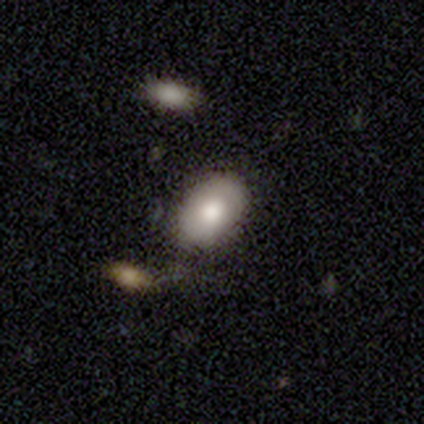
smooth_or_featured: smooth (p=0.72) [alt: featured or disk p=0.28]
how_rounded: in between (p=0.72) [alt: round p=0.24]
merging: none (p=0.75) [alt: minor disturbance p=0.10]